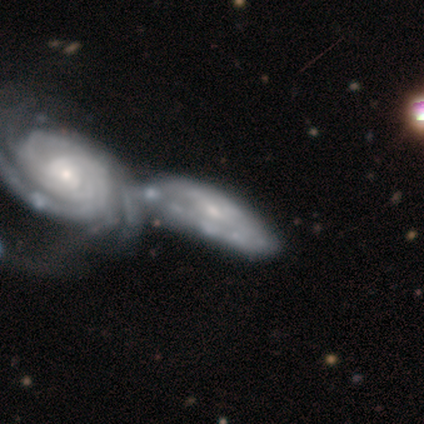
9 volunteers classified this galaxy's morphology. Q: Smooth or featured?
A: featured or disk (78%); runner-up: smooth (22%)
Q: Edge-on disk?
A: no (100%)
Q: Bar?
A: weak (57%); runner-up: no (43%)
Q: Spiral arms?
A: yes (86%); runner-up: no (14%)
Q: Spiral winding?
A: tight (83%); runner-up: loose (17%)
Q: Spiral arm count?
A: can't tell (67%); runner-up: 3 (17%)
Q: Bulge size?
A: small (86%); runner-up: moderate (14%)
Q: Merging?
A: major disturbance (33%); tied with: merger (33%)